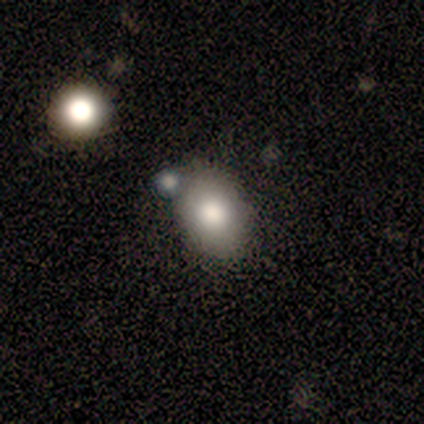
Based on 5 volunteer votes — Morphology: type=smooth (60%); roundness=in between (67%); merging=none (80%).